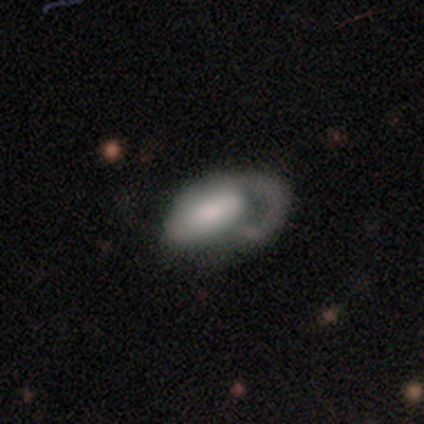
A featured or disk galaxy (55%) with no bar (62%), 1 (89%) medium (37%) spiral arms (68%) and a moderate central bulge (35%). Merging: major disturbance (54%).